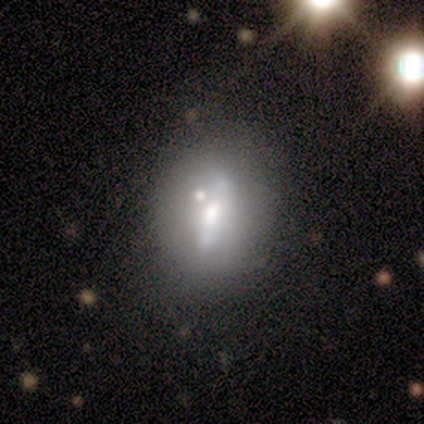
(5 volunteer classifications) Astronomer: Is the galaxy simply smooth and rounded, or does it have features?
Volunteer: featured or disk — 80%.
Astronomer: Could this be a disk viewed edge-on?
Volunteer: yes — 75%.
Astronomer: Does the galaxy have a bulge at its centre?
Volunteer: boxy — 67%.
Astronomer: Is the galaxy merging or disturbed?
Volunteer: none — 40% (runner-up: minor disturbance, 20%).